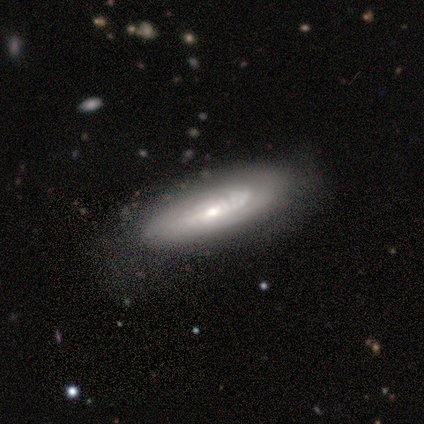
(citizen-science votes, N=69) smooth-or-featured: featured or disk: 57% | smooth: 36% | star or artifact: 7%
  disk-edge-on: no: 90% | yes: 10%
    bar: no: 86% | weak: 9% | strong: 6%
    has-spiral-arms: yes: 80% | no: 20%
      spiral-winding: tight: 75% | medium: 14% | loose: 11%
      spiral-arm-count: can't tell: 75% | 2: 11% | more than 4: 11% | 3: 4% | 1: 0% | 4: 0%
    bulge-size: small: 49% | moderate: 40% | none: 9% | dominant: 3% | large: 0%
  merging: none: 41% | minor disturbance: 19% | major disturbance: 5% | merger: 0%